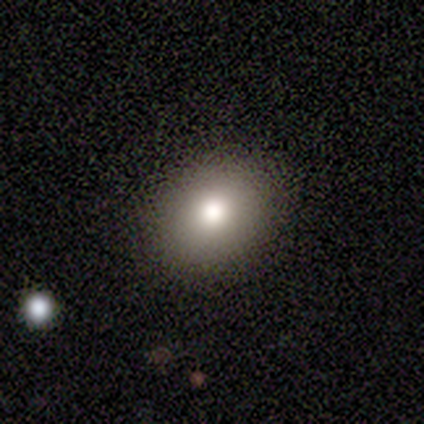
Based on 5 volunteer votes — Smooth or featured? smooth (100%)
How rounded? round (60%)
Merging? none (100%)